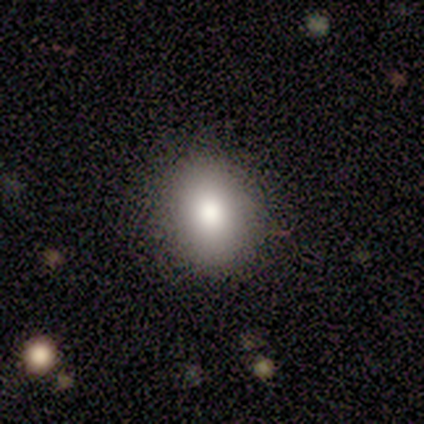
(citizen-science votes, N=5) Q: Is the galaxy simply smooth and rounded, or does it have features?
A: smooth — 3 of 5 (60%).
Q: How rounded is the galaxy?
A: round — 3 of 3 (100%).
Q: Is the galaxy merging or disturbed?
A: none — 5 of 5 (100%).